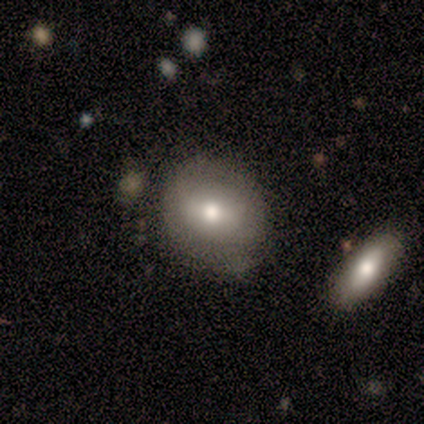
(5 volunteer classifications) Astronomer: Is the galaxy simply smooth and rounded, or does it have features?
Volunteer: smooth — 60% (runner-up: featured or disk, 40%).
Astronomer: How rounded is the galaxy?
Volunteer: round — 67%.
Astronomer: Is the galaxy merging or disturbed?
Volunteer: none — 80%.